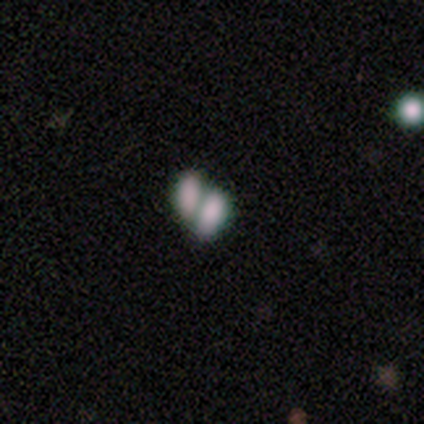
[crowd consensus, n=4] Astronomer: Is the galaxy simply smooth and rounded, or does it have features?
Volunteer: smooth — 75%.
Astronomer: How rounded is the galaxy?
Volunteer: in between — 100%.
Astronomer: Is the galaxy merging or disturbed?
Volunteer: merger — 100%.